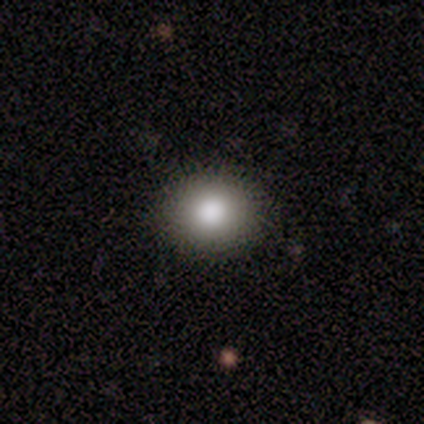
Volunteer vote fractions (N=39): smooth 85%, featured or disk 10%, star or artifact 5%. Down the decision tree: how rounded — round (76%); merging — none (97%).